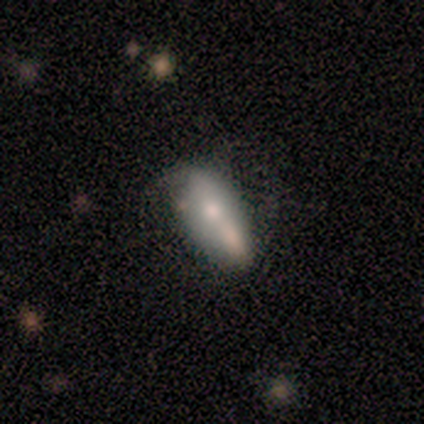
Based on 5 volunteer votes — smooth 80%, featured or disk 20%, star or artifact 0%. Down the decision tree: how rounded — in between (75%); merging — none (60%).